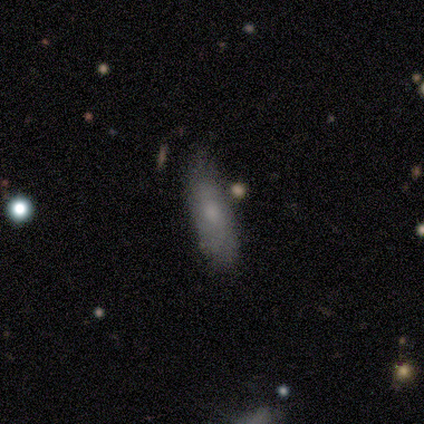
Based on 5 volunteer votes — Volunteers were most divided on "merging": none: 60%, minor disturbance: 40%, major disturbance: 0%, merger: 0%. More confident: how rounded — in between (100%); smooth or featured — smooth (80%).